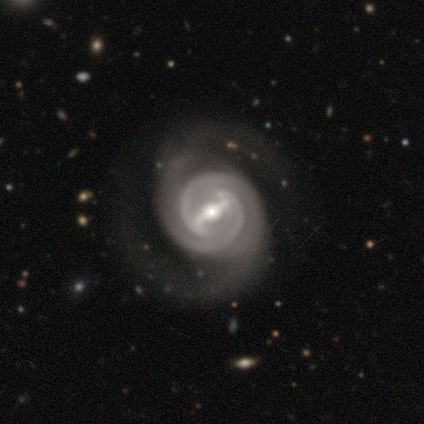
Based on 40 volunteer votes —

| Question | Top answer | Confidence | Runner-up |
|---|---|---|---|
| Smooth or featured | featured or disk | 100% | — |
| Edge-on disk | no | 95% | yes (5%) |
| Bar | strong | 95% | weak (3%) |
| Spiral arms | yes | 100% | — |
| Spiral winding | tight | 58% | medium (34%) |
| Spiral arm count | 2 | 92% | 3 (5%) |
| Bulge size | moderate | 68% | large (18%) |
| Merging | none | 50% | major disturbance (20%) |